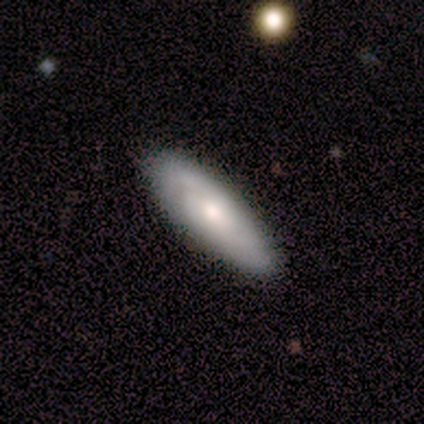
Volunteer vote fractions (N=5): Smooth or featured? smooth (60%)
How rounded? in between (100%)
Merging? none (100%)